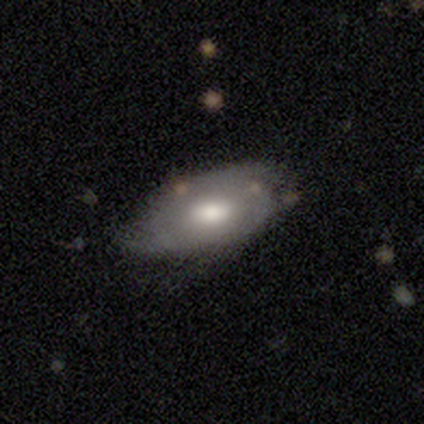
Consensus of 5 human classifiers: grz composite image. It shows a smooth galaxy with no disk features (80%) that is in between round and cigar-shaped (100%). Merging: none (60%).